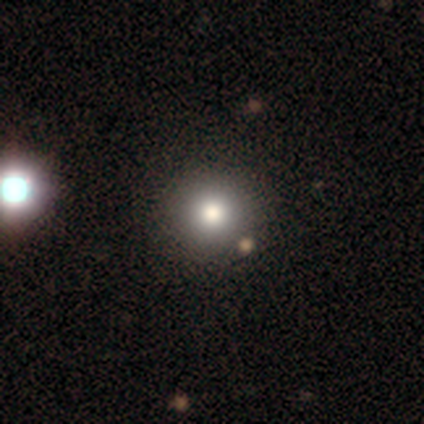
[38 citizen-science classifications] Q: Smooth or featured?
A: smooth (79%); runner-up: star or artifact (18%)
Q: How rounded?
A: round (100%)
Q: Merging?
A: none (65%); runner-up: merger (10%)